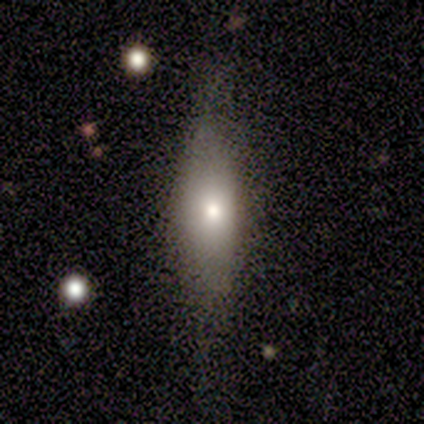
Morphology: type=smooth (80%); roundness=cigar-shaped (75%); merging=none (75%).